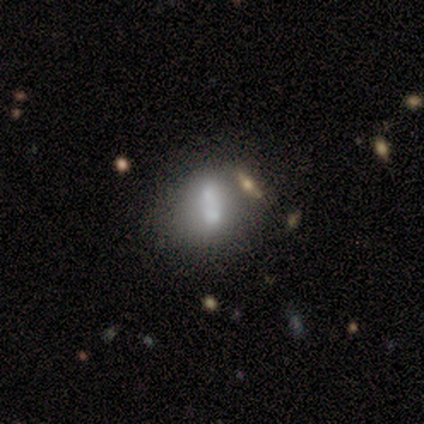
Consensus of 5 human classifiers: smooth 60%, featured or disk 20%, star or artifact 20%. Down the decision tree: how rounded — in between (100%); merging — merger (50%).